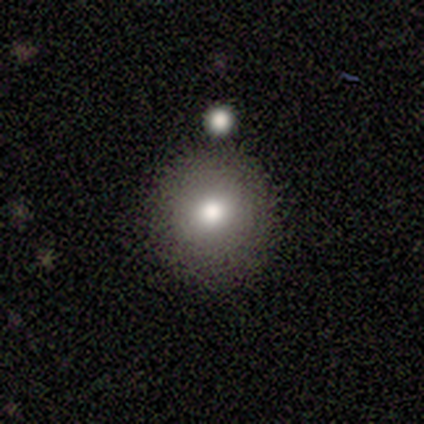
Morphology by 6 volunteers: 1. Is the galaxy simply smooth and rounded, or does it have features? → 83% smooth, 17% star or artifact, 0% featured or disk.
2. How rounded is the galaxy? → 100% round, 0% in between, 0% cigar-shaped.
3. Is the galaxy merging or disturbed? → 60% none, 20% minor disturbance, 20% major disturbance, 0% merger.